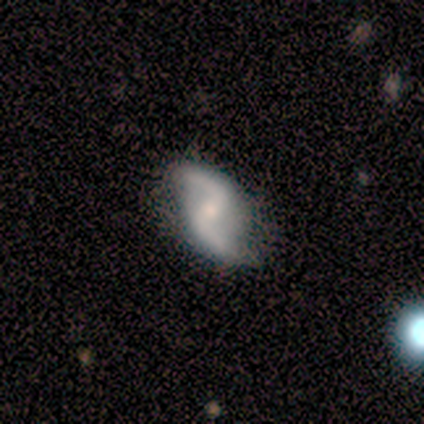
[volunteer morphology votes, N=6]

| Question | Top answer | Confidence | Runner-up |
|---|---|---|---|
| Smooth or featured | featured or disk | 100% | — |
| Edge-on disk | no | 100% | — |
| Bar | strong | 67% | weak (17%) |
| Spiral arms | yes | 100% | — |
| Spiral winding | loose | 83% | medium (17%) |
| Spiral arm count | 2 | 100% | — |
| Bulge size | small | 83% | moderate (17%) |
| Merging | none | 100% | — |